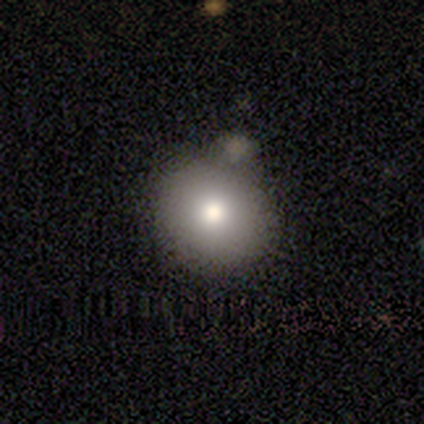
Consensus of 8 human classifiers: Smooth or featured? 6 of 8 (75%) said smooth. How rounded? 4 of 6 (67%) said in between. Merging? 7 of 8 (88%) said none.